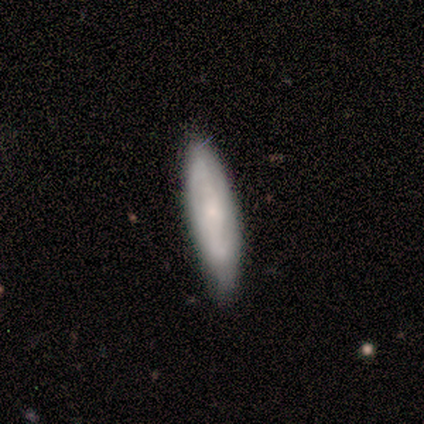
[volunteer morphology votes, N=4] Volunteers were most divided on "how rounded": in between: 67%, cigar-shaped: 33%, round: 0%. More confident: merging — none (100%); smooth or featured — smooth (75%).